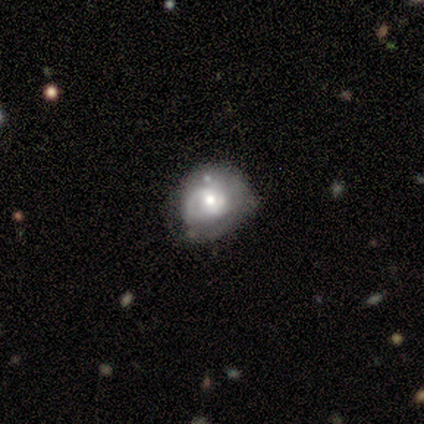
Morphology: type=featured or disk (80%); edge-on=no (100%); bar=no (75%); spiral arms=yes (75%); winding=tight (100%); arm count=1 (33%, tied with 2 and can't tell); bulge=small (50%); merging=none (80%).